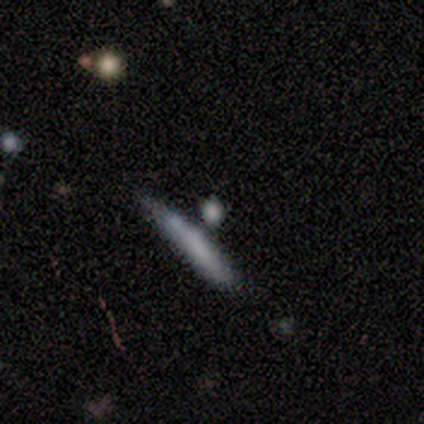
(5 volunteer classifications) Smooth or featured: featured or disk — 60% (smooth — 40%)
Edge-on disk: yes — 100%
Edge-on bulge: none — 100%
Merging: minor disturbance — 60% (none — 20%)